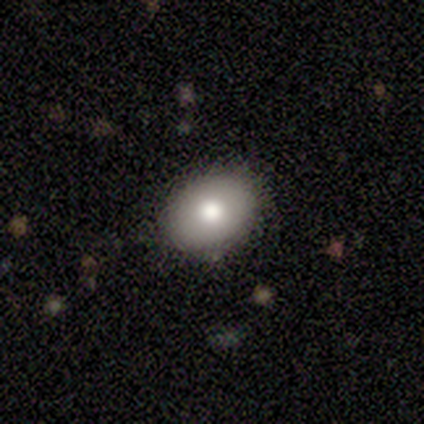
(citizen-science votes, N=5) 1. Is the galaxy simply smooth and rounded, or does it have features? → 60% smooth, 40% featured or disk, 0% star or artifact.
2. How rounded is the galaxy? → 67% in between, 33% round, 0% cigar-shaped.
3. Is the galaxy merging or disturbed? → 100% none, 0% minor disturbance, 0% major disturbance, 0% merger.